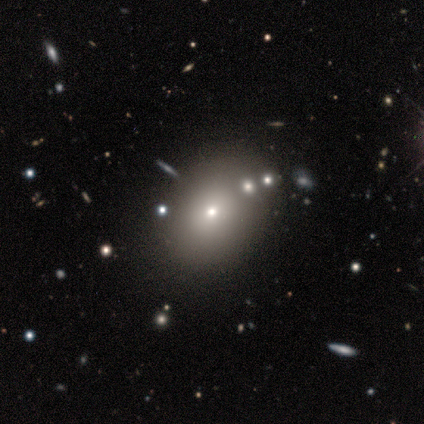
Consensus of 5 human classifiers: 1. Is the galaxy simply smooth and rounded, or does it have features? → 60% star or artifact, 40% smooth, 0% featured or disk.